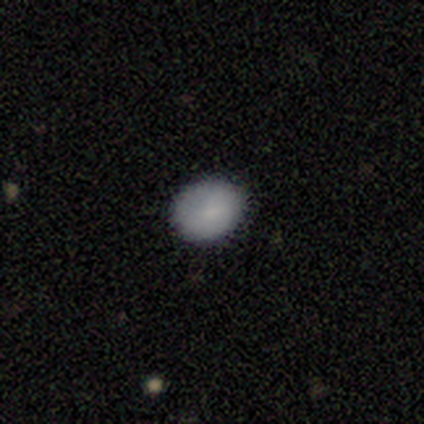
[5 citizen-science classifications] A smooth galaxy with no disk features (100%) that is in between round and cigar-shaped (60%).

Vote fractions:
- Smooth or featured? smooth: 100% / featured or disk: 0% / star or artifact: 0%
- How rounded? in between: 60% / round: 40% / cigar-shaped: 0%
- Merging? none: 100% / minor disturbance: 0% / major disturbance: 0% / merger: 0%